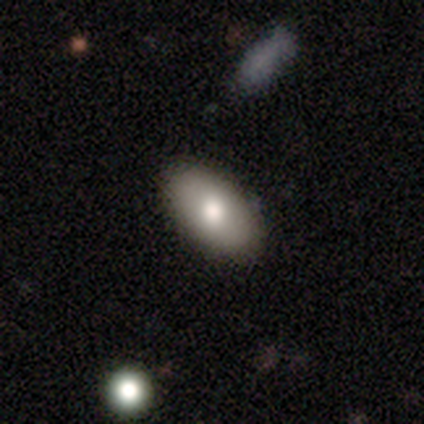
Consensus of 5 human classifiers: smooth-or-featured: smooth: 80% | featured or disk: 20% | star or artifact: 0%
  how-rounded: in between: 100% | round: 0% | cigar-shaped: 0%
  merging: none: 100% | minor disturbance: 0% | major disturbance: 0% | merger: 0%